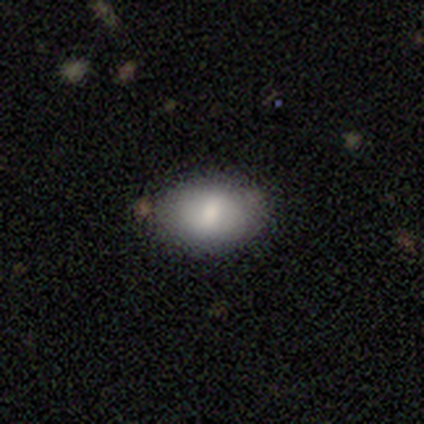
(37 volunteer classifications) smooth_or_featured: smooth (p=0.84) [alt: featured or disk p=0.08]
how_rounded: in between (p=0.94) [alt: round p=0.06]
merging: none (p=0.82) [alt: minor disturbance p=0.15]